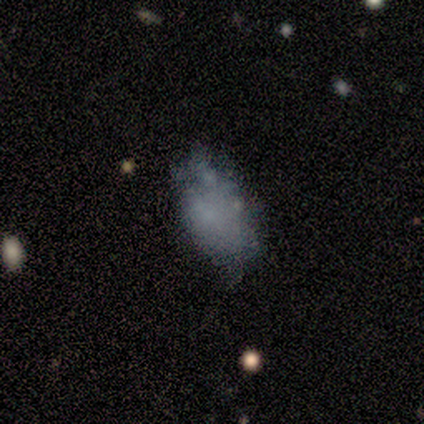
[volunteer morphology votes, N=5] smooth_or_featured: smooth (p=0.60) [alt: featured or disk p=0.20]
how_rounded: in between (p=1.00)
merging: none (p=0.75) [alt: major disturbance p=0.25]